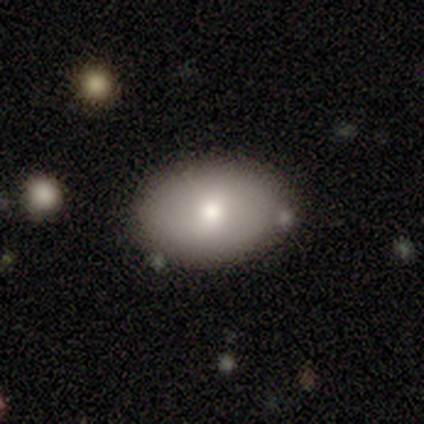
Volunteers were most divided on "merging": none: 40%, minor disturbance: 20%, major disturbance: 20%, merger: 20%. More confident: how rounded — in between (100%); smooth or featured — smooth (80%).